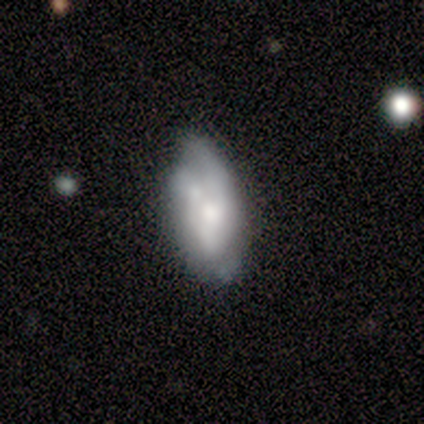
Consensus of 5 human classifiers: A featured or disk galaxy (60%) with no bar (100%), no spiral arms (67%) and a moderate central bulge (67%).

Vote fractions:
- Smooth or featured? featured or disk: 60% / smooth: 40% / star or artifact: 0%
- Edge-on disk? no: 100% / yes: 0%
- Bar? no: 100% / strong: 0% / weak: 0%
- Spiral arms? no: 67% / yes: 33%
- Bulge size? moderate: 67% / none: 33% / dominant: 0% / large: 0% / small: 0%
- Merging? minor disturbance: 40% (tied) / major disturbance: 40% (tied) / none: 20% / merger: 0%